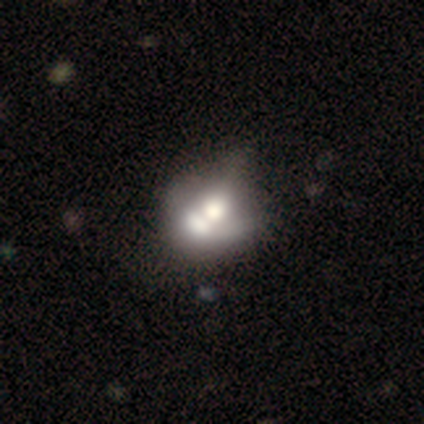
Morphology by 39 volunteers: This is possibly a smooth galaxy (49%). How rounded: possibly round (53%). Merging: likely merger (78%).